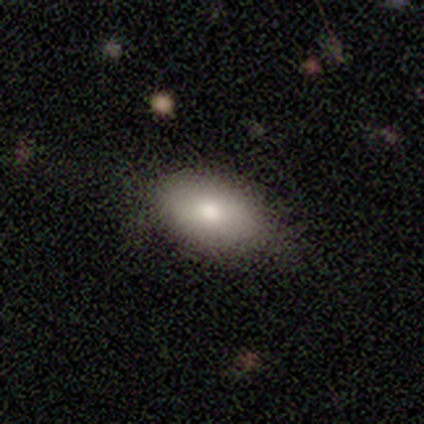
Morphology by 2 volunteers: smooth-or-featured: smooth: 100% | featured or disk: 0% | star or artifact: 0%
  how-rounded: in between: 100% | round: 0% | cigar-shaped: 0%
  merging: none: 100% | minor disturbance: 0% | major disturbance: 0% | merger: 0%